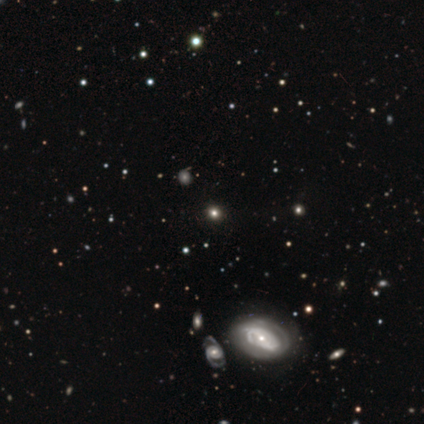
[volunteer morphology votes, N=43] Smooth or featured? smooth (40%)
How rounded? round (71%)
Merging? none (88%)